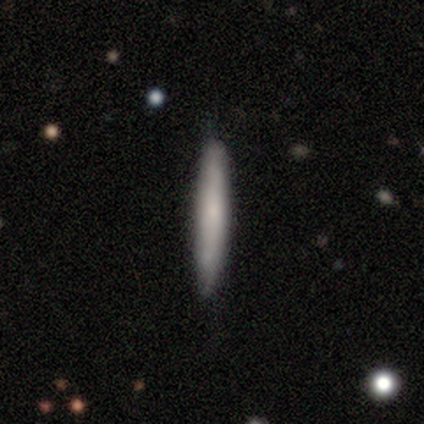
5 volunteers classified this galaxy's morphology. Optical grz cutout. It shows a smooth galaxy with no disk features (100%) that is cigar-shaped (100%). Merging: none (100%).